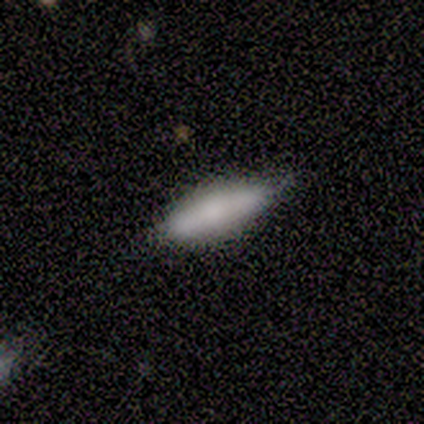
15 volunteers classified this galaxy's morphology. Smooth or featured: smooth — 73% (featured or disk — 20%)
How rounded: cigar-shaped — 55% (in between — 45%)
Merging: none — 79% (minor disturbance — 21%)